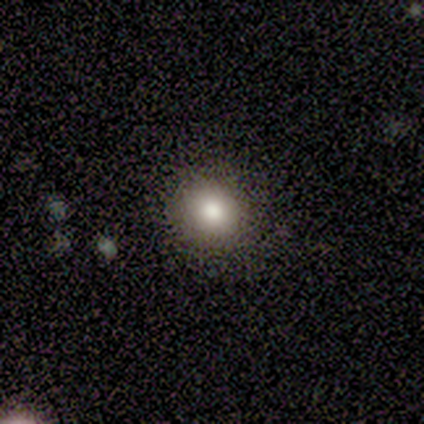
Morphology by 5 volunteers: Q: Smooth or featured?
A: smooth (80%); runner-up: featured or disk (20%)
Q: How rounded?
A: round (100%)
Q: Merging?
A: none (100%)